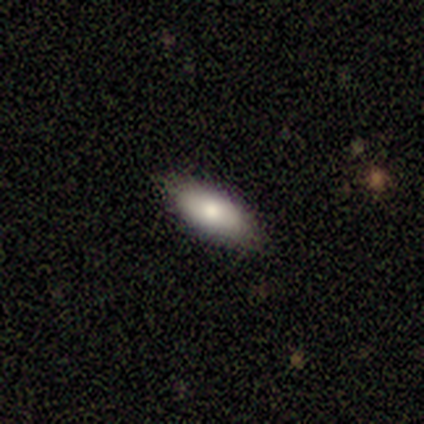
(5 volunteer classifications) Overall: smooth (80%). How rounded: in between (75%). Merging: none (100%).